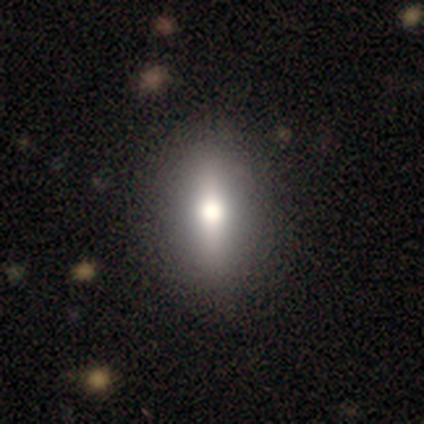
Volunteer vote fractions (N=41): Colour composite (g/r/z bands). It shows a smooth galaxy with no disk features (46%) that is in between round and cigar-shaped (79%). Merging: none (84%).